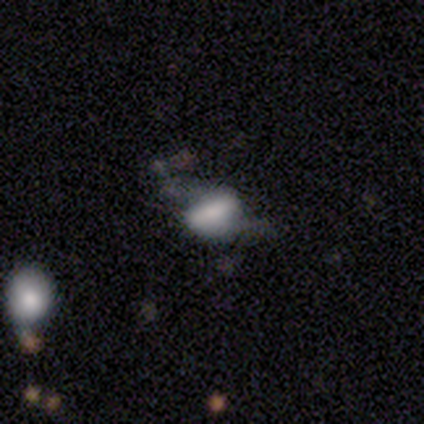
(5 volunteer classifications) This is likely a smooth galaxy (60%). How rounded: likely in between (67%). Merging: possibly none (50%).